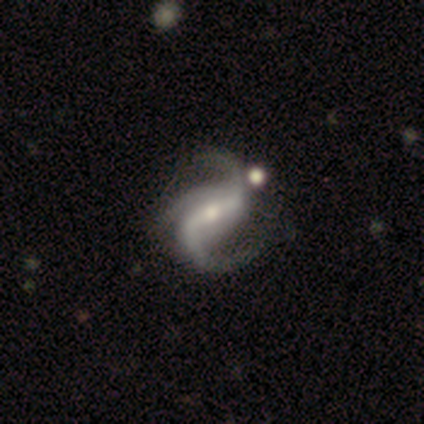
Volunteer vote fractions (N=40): Overall: featured or disk (100%). Edge-on disk: no (100%). Bar: strong (57%; weak 28%). Spiral arms: yes (100%). Spiral arm count: 2 (50%; 3 48%). Spiral winding: loose (62%; medium 35%). Bulge size: small (50%; moderate 40%). Merging: none (40%; minor disturbance 22%).